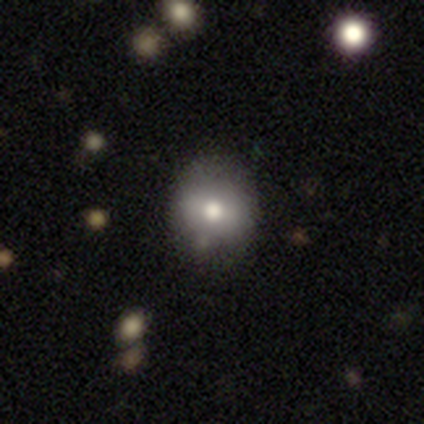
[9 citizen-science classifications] smooth-or-featured: smooth: 67% | featured or disk: 22% | star or artifact: 11%
  how-rounded: round: 83% | in between: 17% | cigar-shaped: 0%
  merging: none: 88% | minor disturbance: 12% | major disturbance: 0% | merger: 0%